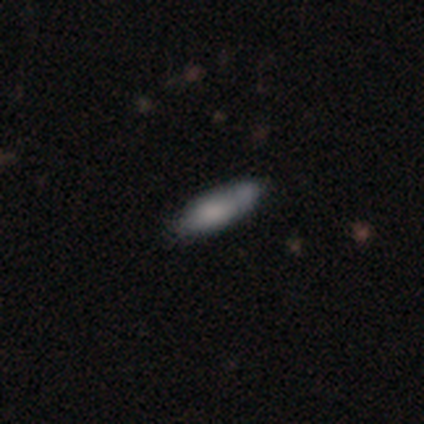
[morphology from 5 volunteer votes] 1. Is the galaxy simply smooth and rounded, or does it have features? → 60% featured or disk, 40% smooth, 0% star or artifact.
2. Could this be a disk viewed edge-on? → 67% no, 33% yes.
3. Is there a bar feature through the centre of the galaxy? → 50% weak (tied), 50% no (tied), 0% strong.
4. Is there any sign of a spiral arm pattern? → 100% no, 0% yes.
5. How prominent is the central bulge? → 100% moderate, 0% dominant, 0% large, 0% small, 0% none.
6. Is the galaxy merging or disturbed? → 80% none, 20% major disturbance, 0% minor disturbance, 0% merger.